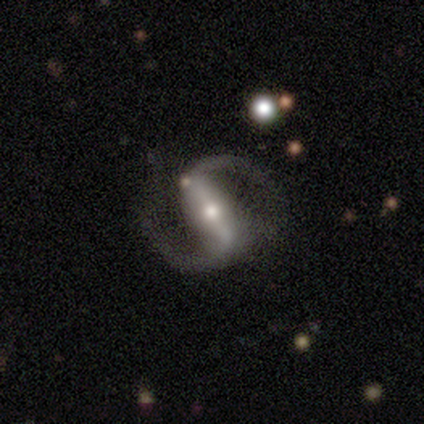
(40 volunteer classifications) Volunteers were most divided on "bulge size": small: 50%, moderate: 47%, large: 3%, dominant: 0%, none: 0%. More confident: spiral arms — yes (100%); spiral arm count — 2 (100%); smooth or featured — featured or disk (95%); edge-on disk — no (95%); bar — strong (78%); spiral winding — loose (61%); merging — none (61%).